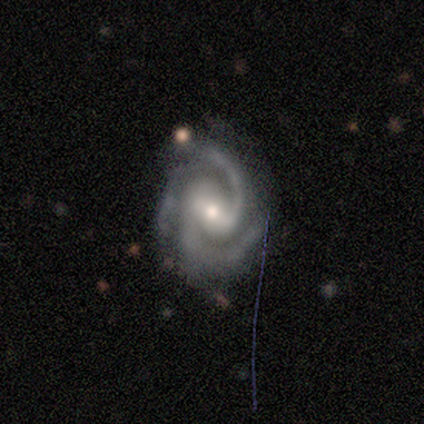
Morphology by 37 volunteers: type=featured or disk (95%); edge-on=no (100%); bar=weak (80%); spiral arms=yes (100%); winding=medium (54%); arm count=2 (63%); bulge=moderate (54%); merging=none (69%).